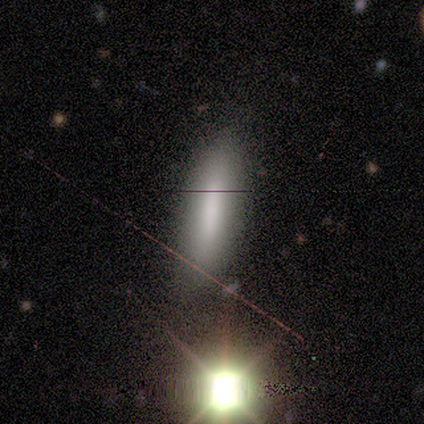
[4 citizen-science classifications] This is clearly a smooth galaxy (100%). How rounded: possibly in between (50%, tied with cigar-shaped). Merging: clearly none (100%).